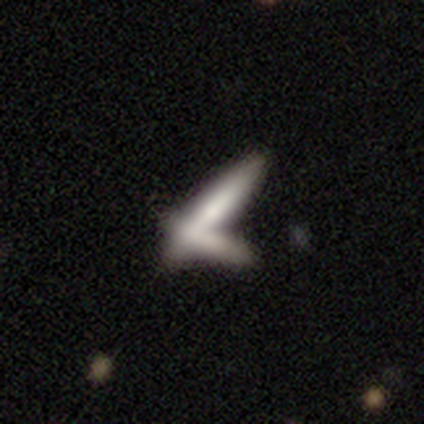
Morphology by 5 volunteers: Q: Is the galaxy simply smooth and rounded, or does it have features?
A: smooth — 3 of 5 (60%).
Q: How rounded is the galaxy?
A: cigar-shaped — 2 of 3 (67%).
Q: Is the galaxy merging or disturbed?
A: none — 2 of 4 (50%).